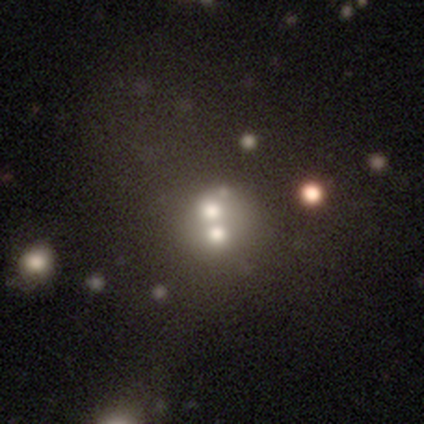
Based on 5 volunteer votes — This appears to be a featured or disk galaxy (60%) with no bar (100%), no spiral arms (100%) and a large central bulge (67%). Merging: merger (60%).